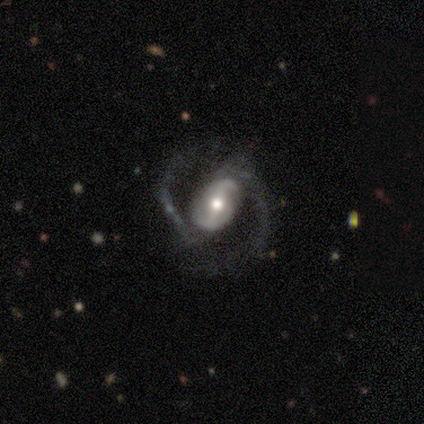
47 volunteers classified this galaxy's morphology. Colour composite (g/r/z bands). It shows a featured or disk galaxy (87%) with a strong bar (60%), 2 (90%) medium (51%) spiral arms (98%) and a moderate central bulge (72%). Merging: none (54%).